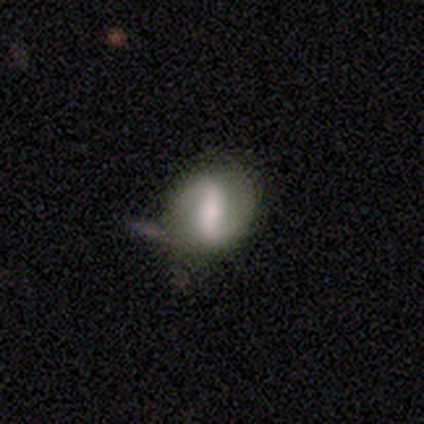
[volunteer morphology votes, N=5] Smooth or featured: featured or disk — 80% (smooth — 20%)
Edge-on disk: no — 75% (yes — 25%)
Bar: strong — 100%
Spiral arms: yes — 67% (no — 33%)
Spiral winding: loose — 100%
Spiral arm count: 2 — 100%
Bulge size: large — 67% (moderate — 33%)
Merging: none — 60% (minor disturbance — 20%)